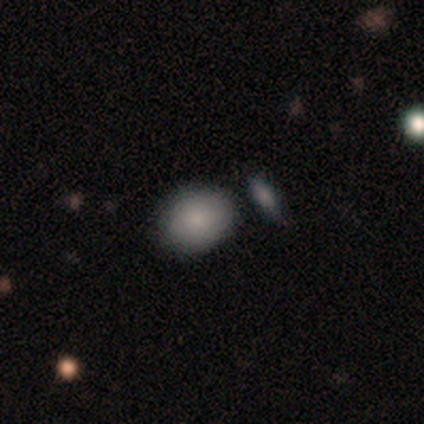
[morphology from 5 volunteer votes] smooth_or_featured: smooth (p=0.80) [alt: star or artifact p=0.20]
how_rounded: in between (p=0.75) [alt: round p=0.25]
merging: none (p=0.75) [alt: merger p=0.25]